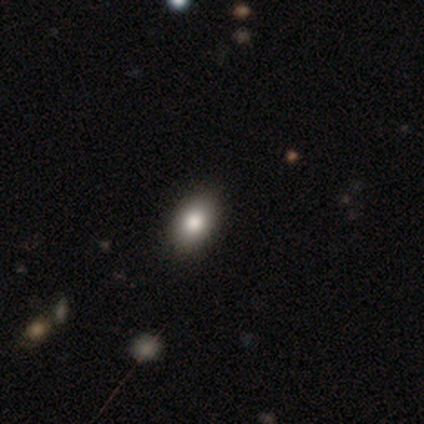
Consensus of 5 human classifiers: Smooth or featured: smooth — 80% (star or artifact — 20%)
How rounded: in between — 75% (cigar-shaped — 25%)
Merging: none — 100%